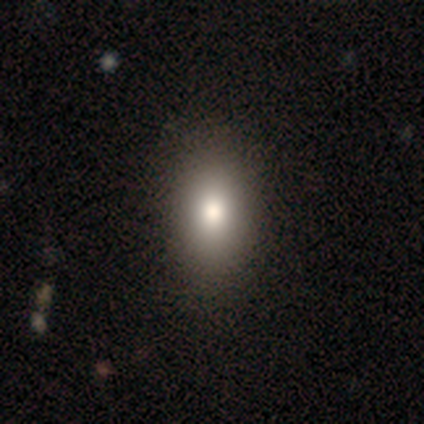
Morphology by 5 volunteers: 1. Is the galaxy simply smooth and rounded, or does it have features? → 100% smooth, 0% featured or disk, 0% star or artifact.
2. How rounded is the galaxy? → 60% in between, 40% round, 0% cigar-shaped.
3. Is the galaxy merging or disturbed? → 100% none, 0% minor disturbance, 0% major disturbance, 0% merger.